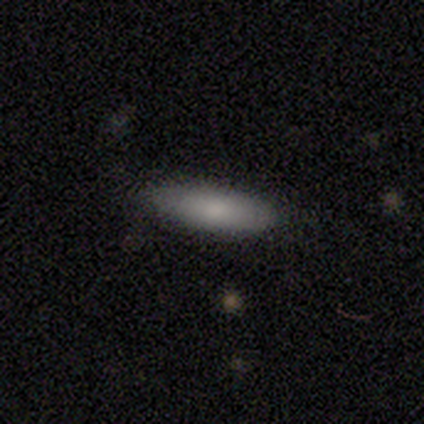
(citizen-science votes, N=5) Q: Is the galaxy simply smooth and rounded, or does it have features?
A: smooth — 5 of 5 (100%).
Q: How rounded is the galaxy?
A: in between — 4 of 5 (80%).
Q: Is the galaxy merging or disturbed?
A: none — 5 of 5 (100%).